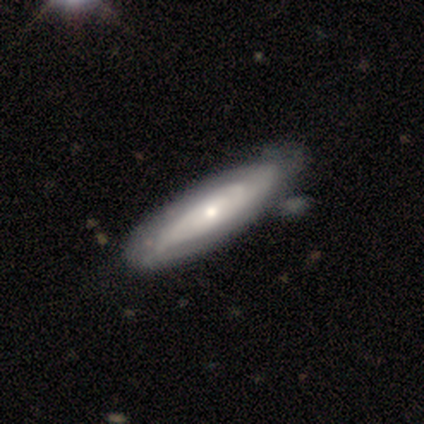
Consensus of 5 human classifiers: A featured or disk galaxy (60%) viewed edge-on (67%) with a boxy central bulge (50%, tied with rounded).

Vote fractions:
- Smooth or featured? featured or disk: 60% / smooth: 40% / star or artifact: 0%
- Edge-on disk? yes: 67% / no: 33%
- Edge-on bulge? boxy: 50% (tied) / rounded: 50% (tied) / none: 0%
- Merging? none: 60% / minor disturbance: 40% / major disturbance: 0% / merger: 0%